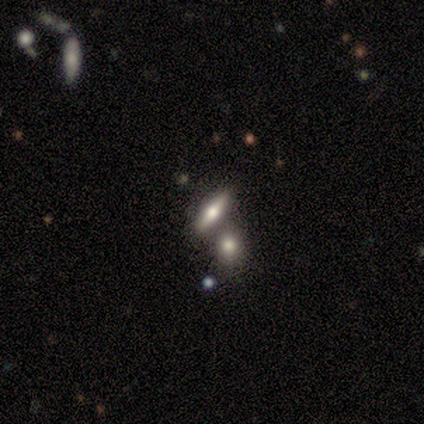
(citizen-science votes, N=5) smooth 60%, featured or disk 40%, star or artifact 0%. Down the decision tree: how rounded — cigar-shaped (67%); merging — none (60%).